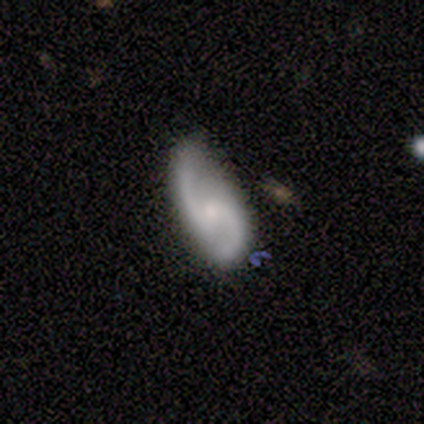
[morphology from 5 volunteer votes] Overall: featured or disk (100%). Edge-on disk: no (100%). Bar: no (100%). Spiral arms: yes (100%). Spiral arm count: 2 (100%). Spiral winding: loose (60%; medium 40%). Bulge size: small (80%). Merging: none (80%).